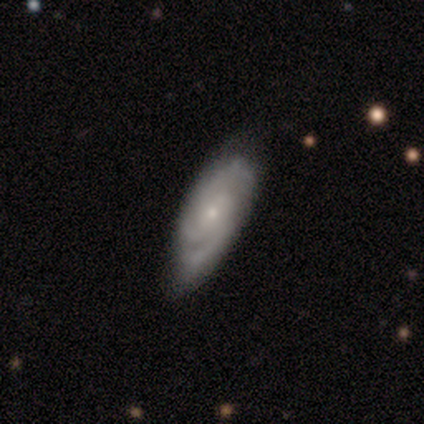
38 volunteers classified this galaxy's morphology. Q: Smooth or featured?
A: featured or disk (74%); runner-up: smooth (24%)
Q: Edge-on disk?
A: no (100%)
Q: Bar?
A: no (50%); runner-up: weak (39%)
Q: Spiral arms?
A: yes (100%)
Q: Spiral winding?
A: tight (50%); runner-up: medium (39%)
Q: Spiral arm count?
A: 3 (43%); runner-up: 2 (36%)
Q: Bulge size?
A: small (75%); runner-up: moderate (21%)
Q: Merging?
A: none (78%); runner-up: minor disturbance (22%)